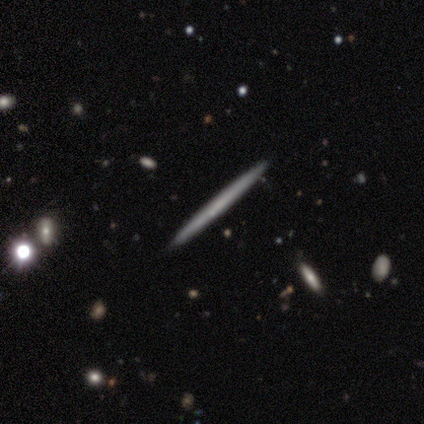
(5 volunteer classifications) smooth 80%, featured or disk 20%, star or artifact 0%. Down the decision tree: how rounded — cigar-shaped (100%); merging — none (100%).